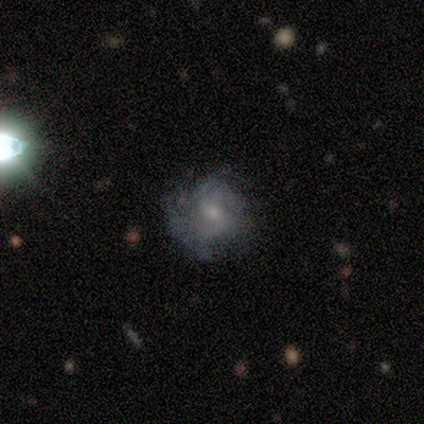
This is likely a featured or disk galaxy (60%). It is clearly not viewed edge-on (100%). Bar: marginally strong (33%, tied with weak and no). Spiral arm pattern: clearly yes (100%). Spiral arm count: likely 2 (67%). Spiral winding: likely tight (67%). Central bulge: likely small (67%). Merging: likely none (60%).